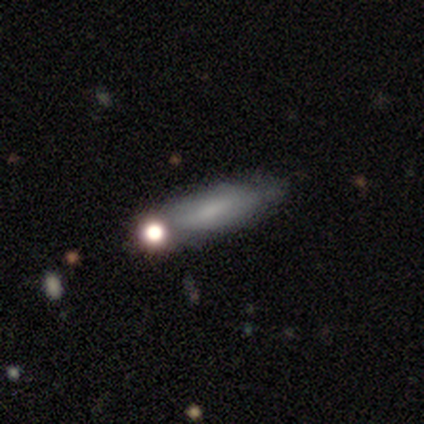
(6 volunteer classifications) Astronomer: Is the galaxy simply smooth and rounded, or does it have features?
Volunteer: smooth — 100%.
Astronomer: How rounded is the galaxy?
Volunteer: cigar-shaped — 67%.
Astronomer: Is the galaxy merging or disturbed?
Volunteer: none — 67%.